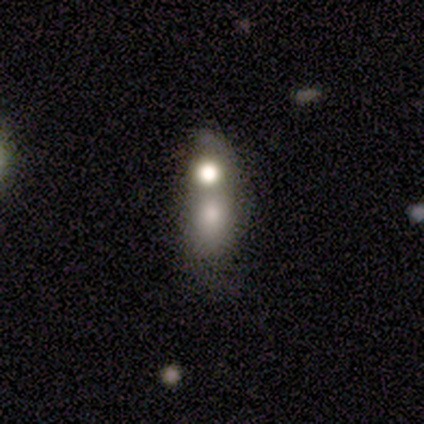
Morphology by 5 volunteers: smooth-or-featured: featured or disk: 80% | smooth: 20% | star or artifact: 0%
  disk-edge-on: no: 100% | yes: 0%
    bar: no: 100% | strong: 0% | weak: 0%
    has-spiral-arms: no: 100% | yes: 0%
    bulge-size: large: 25% (tied) | moderate: 25% (tied) | small: 25% (tied) | none: 25% (tied) | dominant: 0%
  merging: merger: 60% | none: 40% | minor disturbance: 0% | major disturbance: 0%